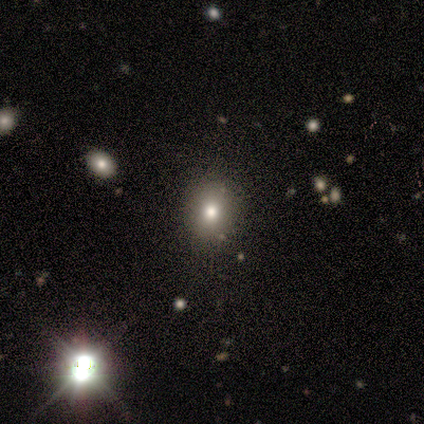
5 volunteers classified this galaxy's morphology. smooth 80%, star or artifact 20%, featured or disk 0%. Down the decision tree: how rounded — round (100%); merging — none (75%).